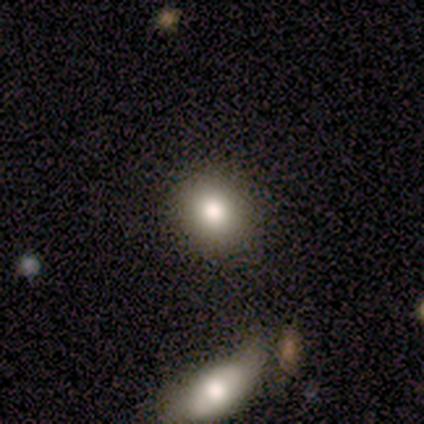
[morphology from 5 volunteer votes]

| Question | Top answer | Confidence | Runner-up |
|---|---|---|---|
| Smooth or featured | smooth | 80% | star or artifact (20%) |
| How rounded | round | 100% | — |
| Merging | none | 75% | minor disturbance (25%) |